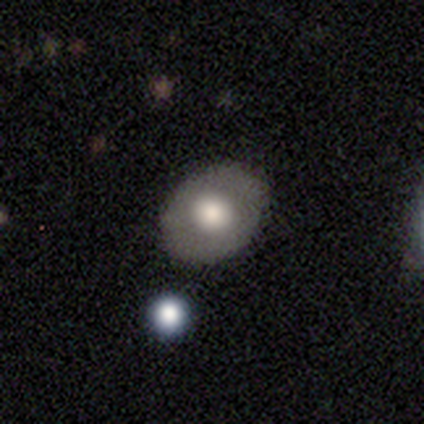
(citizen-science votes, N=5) Volunteers were most divided on "merging": none: 60%, minor disturbance: 20%, major disturbance: 20%, merger: 0%. More confident: edge-on disk — no (100%); bar — no (100%); smooth or featured — featured or disk (80%); spiral arms — no (75%); bulge size — large (75%).